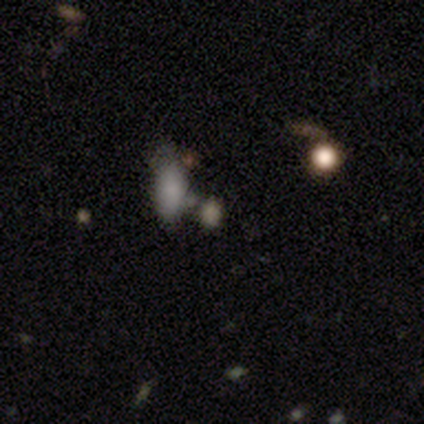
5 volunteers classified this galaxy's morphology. star or artifact 80%, smooth 20%, featured or disk 0%.